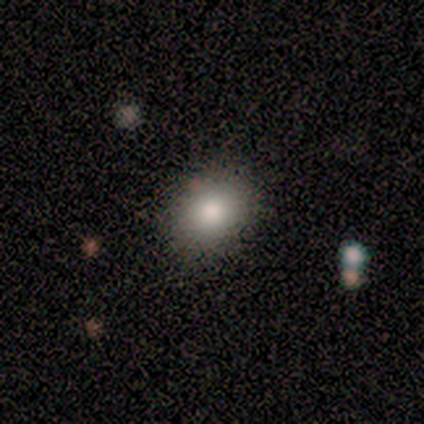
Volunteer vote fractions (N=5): A smooth galaxy with no disk features (80%) that is round (75%). Merging: none (100%).